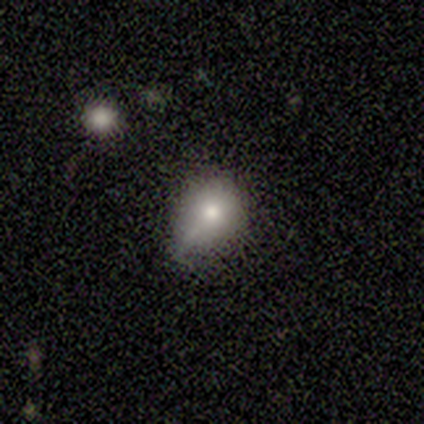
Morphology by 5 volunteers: A smooth galaxy with no disk features (80%) that is round (50%, tied with in between). Merging: minor disturbance (75%).